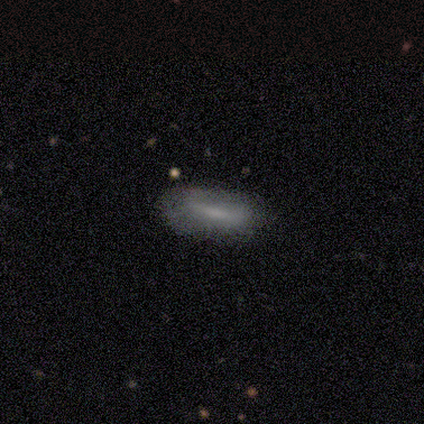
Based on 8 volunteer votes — Smooth or featured?
  - smooth: 50% *
  - featured or disk: 38%
  - star or artifact: 12%
How rounded?
  - in between: 100% *
  - round: 0%
  - cigar-shaped: 0%
Merging?
  - none: 71% *
  - minor disturbance: 29%
  - major disturbance: 0%
  - merger: 0%